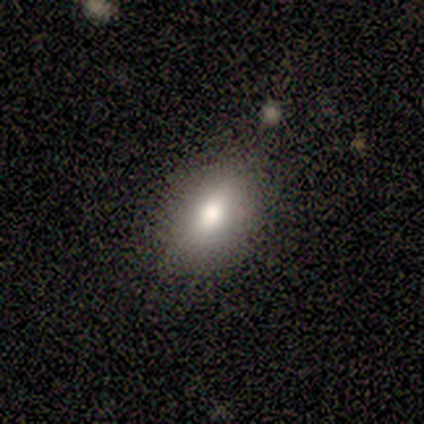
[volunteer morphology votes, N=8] Smooth or featured: smooth — 62% (featured or disk — 25%)
How rounded: in between — 100%
Merging: none — 100%